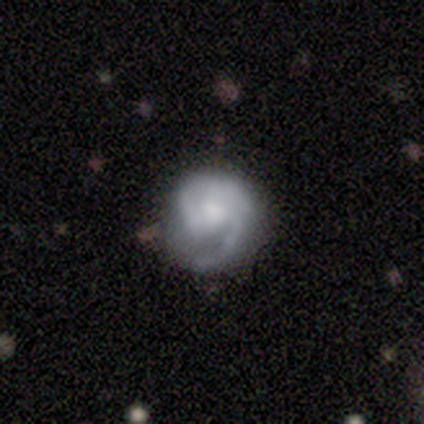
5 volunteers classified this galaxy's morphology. Smooth or featured? 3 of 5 (60%) said featured or disk. Edge-on disk? 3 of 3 (100%) said no. Bar? 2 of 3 (67%) said no. Spiral arms? 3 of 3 (100%) said yes. Spiral winding? 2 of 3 (67%) said medium. Spiral arm count? 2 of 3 (67%) said 2. Bulge size? 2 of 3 (67%) said moderate. Merging? 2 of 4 (50%, tied with minor disturbance) said none.